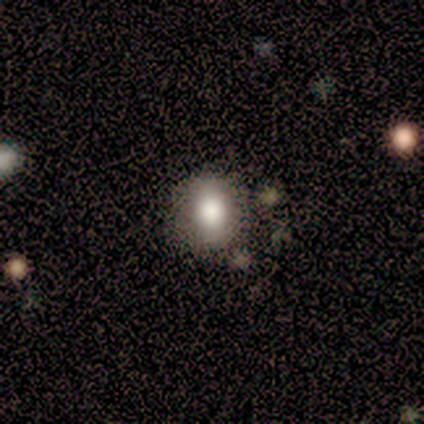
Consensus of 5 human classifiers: Smooth or featured? 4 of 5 (80%) said smooth. How rounded? 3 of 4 (75%) said in between. Merging? 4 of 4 (100%) said none.